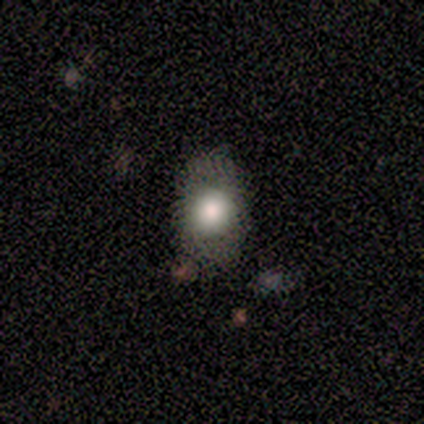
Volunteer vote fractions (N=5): smooth 60%, featured or disk 20%, star or artifact 20%. Down the decision tree: how rounded — in between (100%); merging — none (75%).